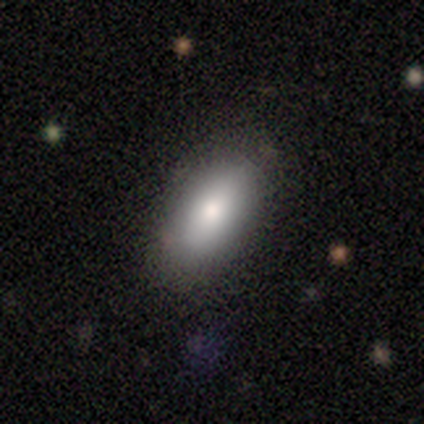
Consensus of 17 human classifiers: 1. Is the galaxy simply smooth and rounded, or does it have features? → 82% smooth, 18% featured or disk, 0% star or artifact.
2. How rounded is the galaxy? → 100% in between, 0% round, 0% cigar-shaped.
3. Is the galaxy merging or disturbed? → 94% none, 6% major disturbance, 0% minor disturbance, 0% merger.